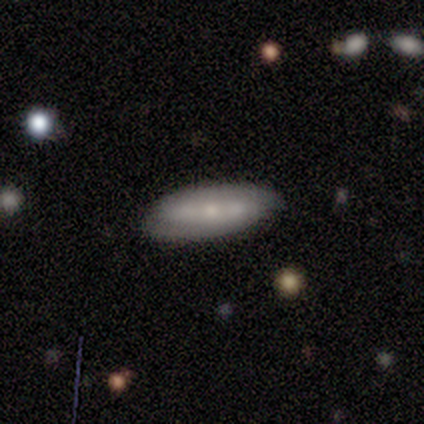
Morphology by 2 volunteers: smooth-or-featured: smooth: 50% (tied) | featured or disk: 50% (tied) | star or artifact: 0%
  how-rounded: cigar-shaped: 100% | round: 0% | in between: 0%
  merging: none: 50% (tied) | merger: 50% (tied) | minor disturbance: 0% | major disturbance: 0%